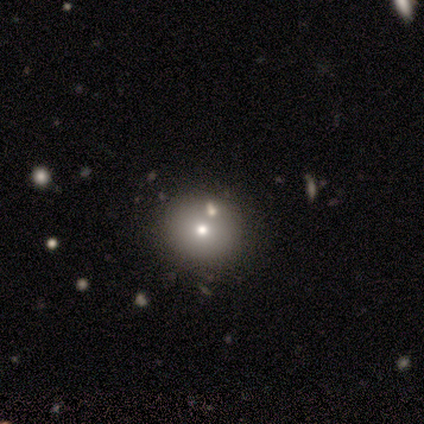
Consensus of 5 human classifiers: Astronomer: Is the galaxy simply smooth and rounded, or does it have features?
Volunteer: smooth — 80%.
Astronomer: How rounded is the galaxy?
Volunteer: round — 100%.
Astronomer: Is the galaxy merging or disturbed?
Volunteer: none — 100%.